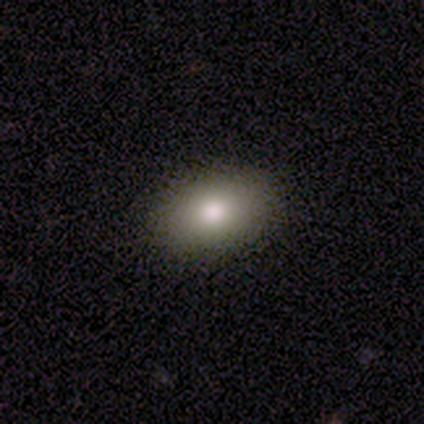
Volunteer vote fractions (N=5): Volunteers were most divided on "smooth or featured": smooth: 80%, featured or disk: 20%, star or artifact: 0%. More confident: how rounded — in between (100%); merging — none (100%).